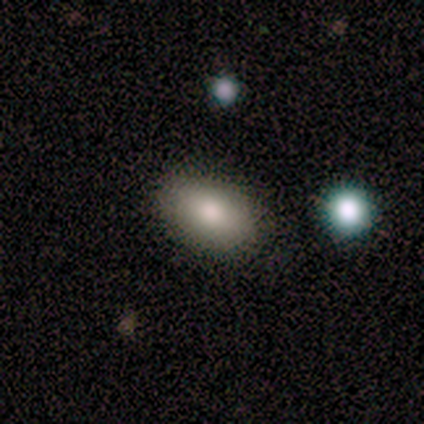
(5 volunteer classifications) Consensus on every question: smooth or featured — smooth (100%); how rounded — in between (100%); merging — none (100%).